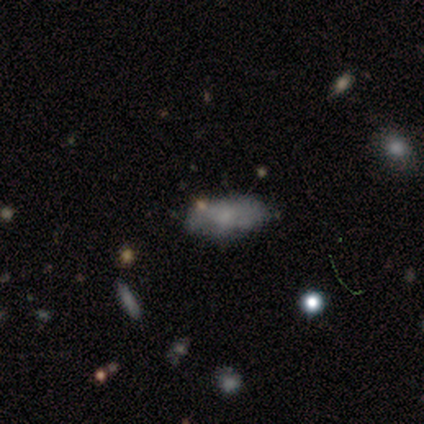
A smooth galaxy with no disk features (100%) that is in between round and cigar-shaped (100%). Merging: none (50%).